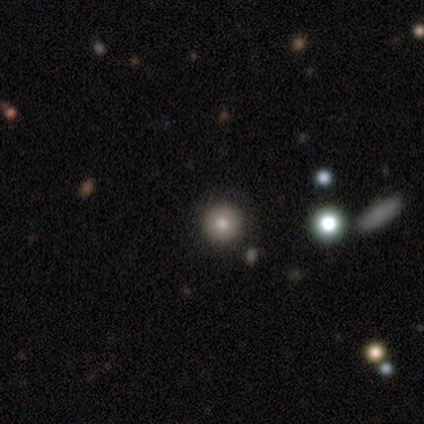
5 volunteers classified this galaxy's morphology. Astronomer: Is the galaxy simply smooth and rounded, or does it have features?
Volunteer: smooth — 60% (runner-up: star or artifact, 40%).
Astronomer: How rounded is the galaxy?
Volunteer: round — 100%.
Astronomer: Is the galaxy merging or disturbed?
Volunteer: none — 100%.